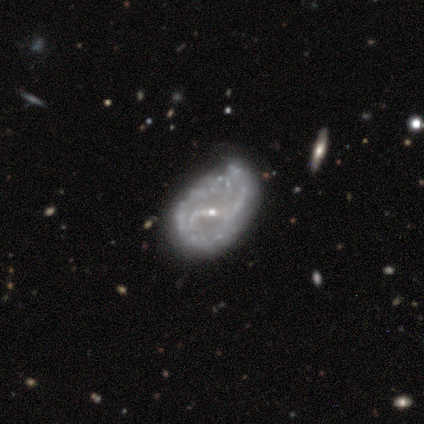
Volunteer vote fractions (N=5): Smooth or featured? featured or disk (100%)
Edge-on disk? no (100%)
Bar? strong (60%)
Spiral arms? yes (100%)
Spiral winding? loose (60%)
Spiral arm count? 2 (60%)
Bulge size? small (60%)
Merging? major disturbance (40%)